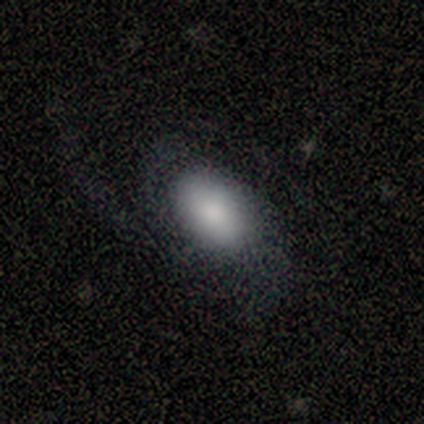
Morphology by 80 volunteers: Volunteers were most divided on "merging": major disturbance: 25%, none: 24%, minor disturbance: 13%, merger: 3%. More confident: how rounded — in between (91%); smooth or featured — smooth (57%).